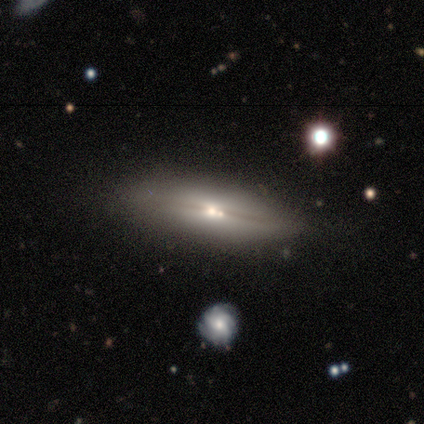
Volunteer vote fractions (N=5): This is likely a featured or disk galaxy (60%). It is clearly viewed edge-on (100%). Edge-on bulge: likely rounded (67%). Merging: likely none (75%).